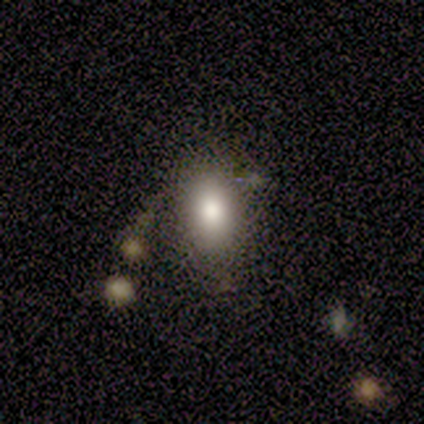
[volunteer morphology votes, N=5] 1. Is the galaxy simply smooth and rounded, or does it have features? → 60% smooth, 40% featured or disk, 0% star or artifact.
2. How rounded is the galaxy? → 100% in between, 0% round, 0% cigar-shaped.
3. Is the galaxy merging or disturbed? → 40% minor disturbance (tied), 40% merger (tied), 20% none, 0% major disturbance.